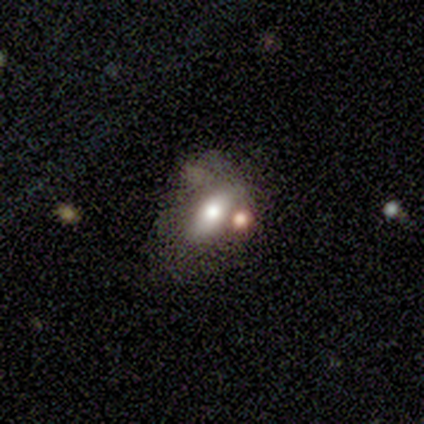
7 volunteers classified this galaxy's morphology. A smooth galaxy with no disk features (57%) that is in between round and cigar-shaped (100%).

Vote fractions:
- Smooth or featured? smooth: 57% / featured or disk: 43% / star or artifact: 0%
- How rounded? in between: 100% / round: 0% / cigar-shaped: 0%
- Merging? none: 57% / merger: 29% / major disturbance: 14% / minor disturbance: 0%